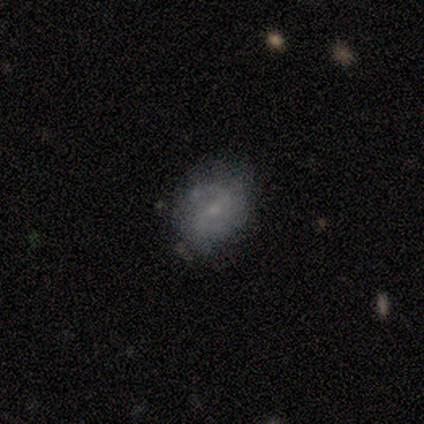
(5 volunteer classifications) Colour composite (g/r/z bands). It shows a featured or disk galaxy (60%) with a strong bar (67%), 2 (100%) medium (67%) spiral arms (100%) and a small central bulge (100%). Merging: none (50%).